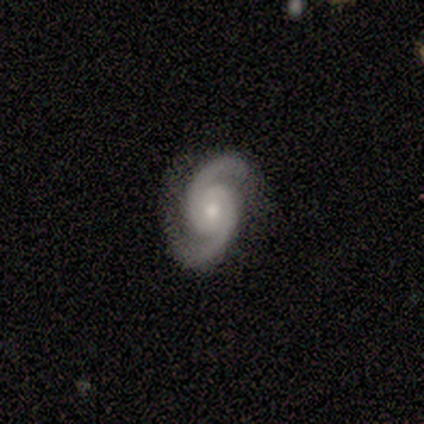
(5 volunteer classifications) Smooth or featured?
  - featured or disk: 100% *
  - smooth: 0%
  - star or artifact: 0%
Edge-on disk?
  - no: 100% *
  - yes: 0%
Bar?
  - no: 60% *
  - strong: 40%
  - weak: 0%
Spiral arms?
  - yes: 100% *
  - no: 0%
Spiral winding?
  - medium: 80% *
  - tight: 20%
  - loose: 0%
Spiral arm count?
  - 2: 100% *
  - 1: 0%
  - 3: 0%
  - 4: 0%
  - more than 4: 0%
  - can't tell: 0%
Bulge size?
  - moderate: 60% *
  - small: 40%
  - dominant: 0%
  - large: 0%
  - none: 0%
Merging?
  - none: 100% *
  - minor disturbance: 0%
  - major disturbance: 0%
  - merger: 0%